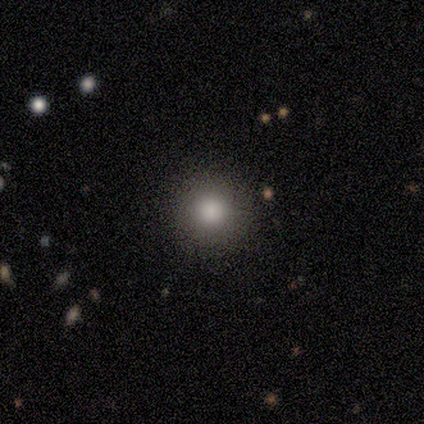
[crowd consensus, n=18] smooth 78%, star or artifact 17%, featured or disk 6%. Down the decision tree: how rounded — round (93%); merging — none (93%).